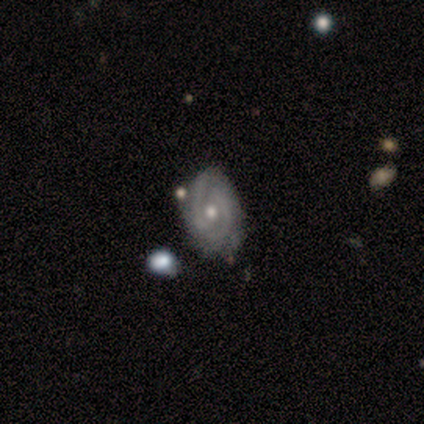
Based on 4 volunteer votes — smooth_or_featured: featured or disk (p=0.75) [alt: smooth p=0.25]
disk_edge_on: no (p=1.00)
bar: no (p=1.00)
has_spiral_arms: yes (p=1.00)
spiral_winding: medium (p=0.67) [alt: tight p=0.33]
spiral_arm_count: 2 (p=0.67) [alt: can't tell p=0.33]
bulge_size: moderate (p=0.67) [alt: small p=0.33]
merging: none (p=0.75) [alt: minor disturbance p=0.25]